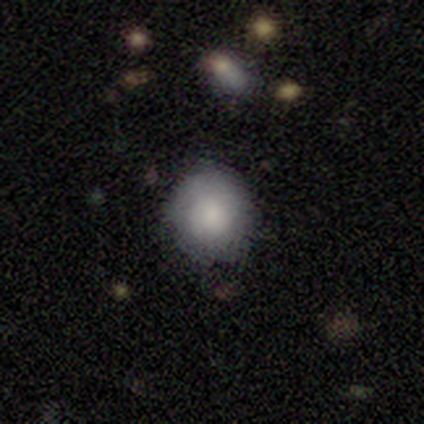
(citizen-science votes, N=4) smooth_or_featured: smooth (p=1.00)
how_rounded: round (p=1.00)
merging: minor disturbance (p=0.75) [alt: none p=0.25]